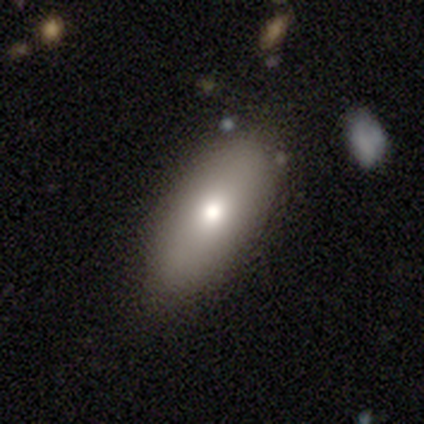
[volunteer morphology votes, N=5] type=featured or disk (60%); edge-on=no (100%); bar=no (100%); spiral arms=no (100%); bulge=small (67%); merging=none (100%).